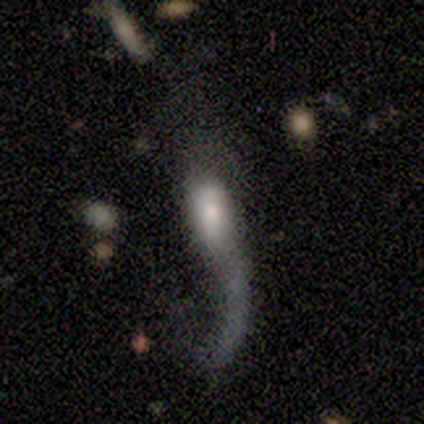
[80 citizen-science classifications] Smooth or featured: featured or disk — 61% (smooth — 31%)
Edge-on disk: no — 84% (yes — 16%)
Bar: no — 68% (strong — 20%)
Spiral arms: yes — 51% (no — 49%)
Spiral winding: loose — 95% (medium — 5%)
Spiral arm count: 1 — 86% (2 — 14%)
Bulge size: moderate — 51% (large — 22%)
Merging: major disturbance — 70% (none — 15%)